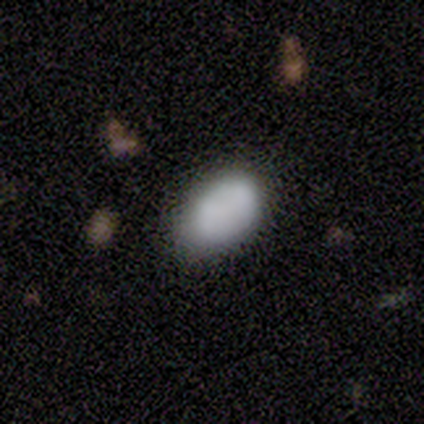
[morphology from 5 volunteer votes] Volunteers were most divided on "smooth or featured": featured or disk: 60%, smooth: 40%, star or artifact: 0%. More confident: edge-on disk — no (100%); bar — no (100%); spiral arms — no (100%); bulge size — none (67%); merging — merger (60%).